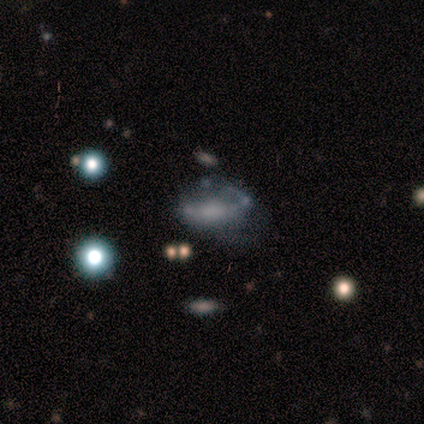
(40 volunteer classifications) Smooth or featured? featured or disk (45%)
Edge-on disk? no (78%)
Bar? no (64%)
Spiral arms? yes (57%)
Spiral winding? medium (62%)
Spiral arm count? 2 (50%)
Bulge size? none (64%)
Merging? major disturbance (35%)